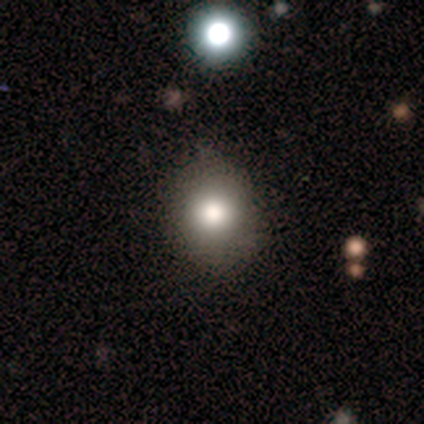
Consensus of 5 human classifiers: Volunteers were most divided on "merging" (2-way tie): none: 50%, minor disturbance: 50%, major disturbance: 0%, merger: 0%. More confident: how rounded — round (100%); smooth or featured — smooth (80%).